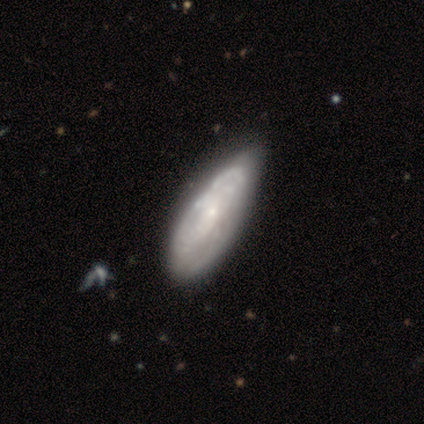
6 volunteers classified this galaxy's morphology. smooth 50%, featured or disk 33%, star or artifact 17%. Down the decision tree: how rounded — in between (100%); merging — minor disturbance (80%).